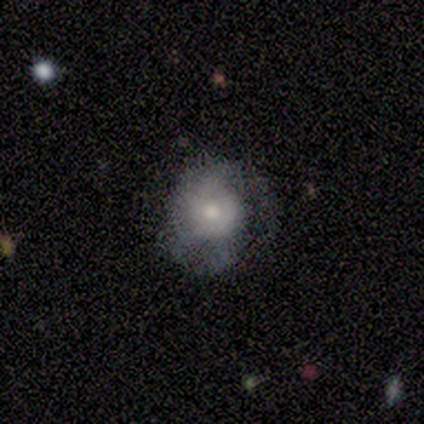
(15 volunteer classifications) Q: Smooth or featured?
A: smooth (47%); runner-up: featured or disk (40%)
Q: How rounded?
A: round (71%); runner-up: in between (29%)
Q: Merging?
A: minor disturbance (38%); runner-up: none (31%)